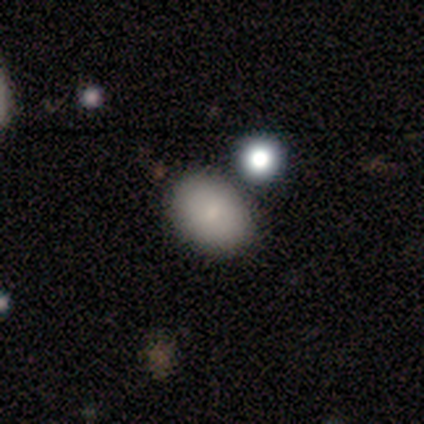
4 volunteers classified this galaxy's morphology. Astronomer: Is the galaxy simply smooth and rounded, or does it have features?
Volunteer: smooth — 100%.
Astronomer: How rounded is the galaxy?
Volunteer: in between — 75%.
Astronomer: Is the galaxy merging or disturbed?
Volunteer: none — 100%.